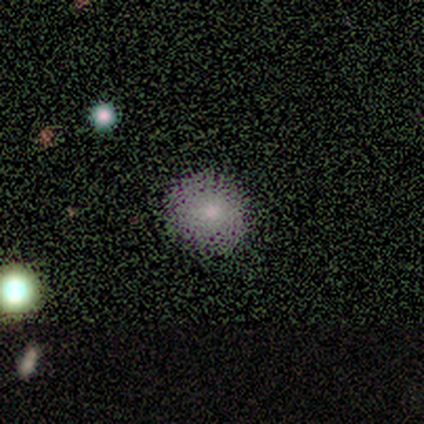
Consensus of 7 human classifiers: This appears to be a smooth galaxy with no disk features (71%) that is round (100%). Merging: none (83%).